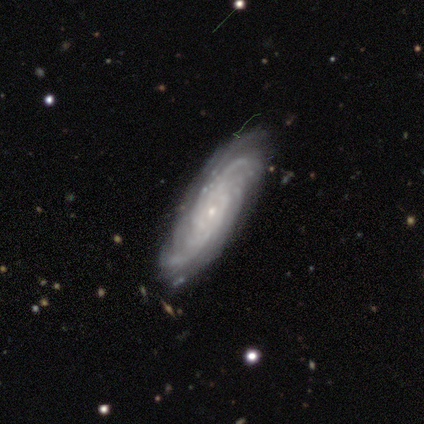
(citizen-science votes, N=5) A featured or disk galaxy (60%) with no bar (67%), tight (67%) spiral arms (100%) and a small central bulge (100%).

Vote fractions:
- Smooth or featured? featured or disk: 60% / smooth: 40% / star or artifact: 0%
- Edge-on disk? no: 100% / yes: 0%
- Bar? no: 67% / weak: 33% / strong: 0%
- Spiral arms? yes: 100% / no: 0%
- Spiral winding? tight: 67% / medium: 33% / loose: 0%
- Spiral arm count? can't tell: 67% / more than 4: 33% / 1: 0% / 2: 0% / 3: 0% / 4: 0%
- Bulge size? small: 100% / dominant: 0% / large: 0% / moderate: 0% / none: 0%
- Merging? none: 40% / minor disturbance: 20% / major disturbance: 20% / merger: 20%